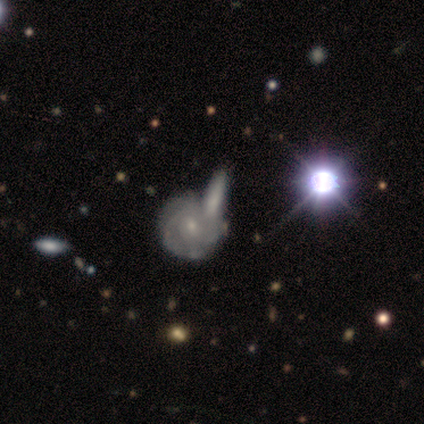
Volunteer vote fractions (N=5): Morphology: type=featured or disk (80%); edge-on=no (100%); bar=no (75%); spiral arms=yes (100%); winding=tight (100%); arm count=can't tell (50%); bulge=small (100%); merging=merger (60%).